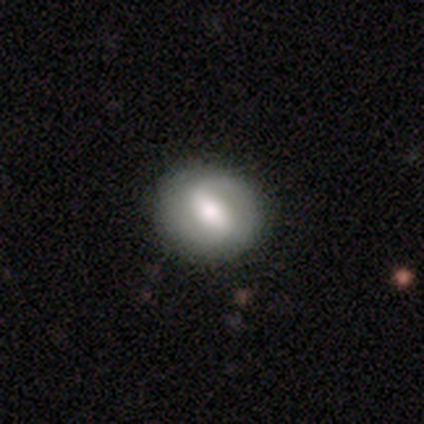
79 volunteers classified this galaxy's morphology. smooth-or-featured: featured or disk: 59% | smooth: 33% | star or artifact: 8%
  disk-edge-on: no: 96% | yes: 4%
    bar: strong: 51% | weak: 44% | no: 4%
    has-spiral-arms: yes: 89% | no: 11%
      spiral-winding: medium: 40% | tight: 38% | loose: 22%
      spiral-arm-count: 2: 80% | can't tell: 10% | 1: 8% | more than 4: 2% | 3: 0% | 4: 0%
    bulge-size: moderate: 60% | large: 20% | dominant: 9% | small: 7% | none: 4%
  merging: none: 45% | minor disturbance: 7% | major disturbance: 1% | merger: 0%